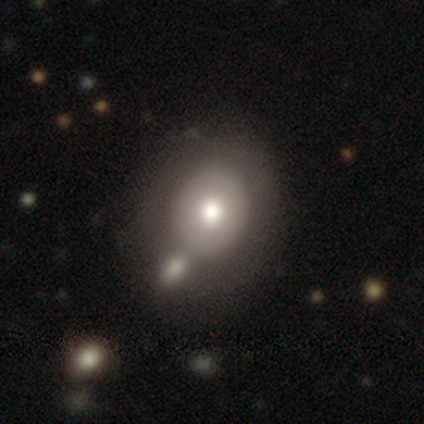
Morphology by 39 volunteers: This is likely a smooth galaxy (69%). How rounded: possibly in between (52%). Merging: marginally none (36%).